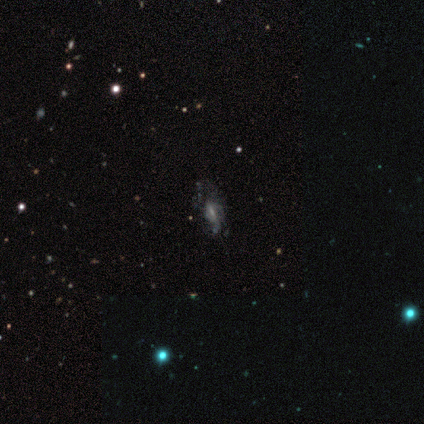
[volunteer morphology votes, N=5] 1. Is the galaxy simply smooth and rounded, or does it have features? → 80% featured or disk, 20% smooth, 0% star or artifact.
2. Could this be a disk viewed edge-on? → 100% no, 0% yes.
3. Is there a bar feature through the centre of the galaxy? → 50% weak, 25% strong, 25% no.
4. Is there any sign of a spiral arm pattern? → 100% yes, 0% no.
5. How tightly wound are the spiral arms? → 50% tight, 25% medium, 25% loose.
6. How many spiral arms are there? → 50% can't tell, 25% 1, 25% 2, 0% 3, 0% 4, 0% more than 4.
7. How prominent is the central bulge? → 50% moderate (tied), 50% small (tied), 0% dominant, 0% large, 0% none.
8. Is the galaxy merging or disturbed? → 60% major disturbance, 20% none, 20% minor disturbance, 0% merger.